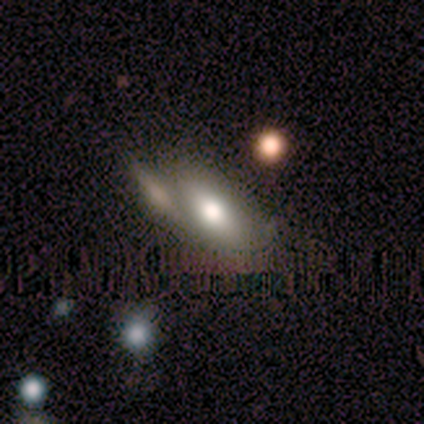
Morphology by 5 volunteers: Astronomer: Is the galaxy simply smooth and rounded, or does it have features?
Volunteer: smooth — 60%.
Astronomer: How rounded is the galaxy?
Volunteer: in between — 100%.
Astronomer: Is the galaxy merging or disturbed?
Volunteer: none — 50%, tied with merger at 50%.